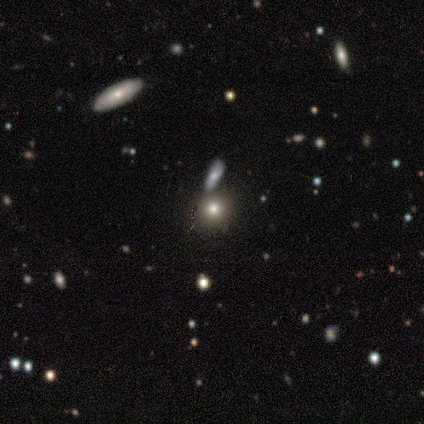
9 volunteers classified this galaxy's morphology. A smooth galaxy with no disk features (67%) that is round (83%). Merging: none (62%).